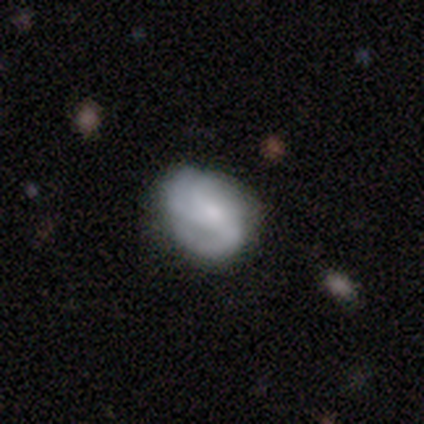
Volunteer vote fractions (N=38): Smooth or featured: featured or disk — 68% (smooth — 26%)
Edge-on disk: no — 100%
Bar: no — 77% (weak — 23%)
Spiral arms: yes — 73% (no — 27%)
Spiral winding: tight — 47% (medium — 42%)
Spiral arm count: 3 — 42% (2 — 21%)
Bulge size: moderate — 38% (tied with small — 38%)
Merging: none — 75% (minor disturbance — 17%)